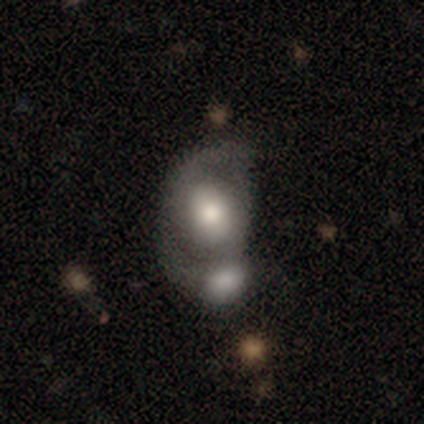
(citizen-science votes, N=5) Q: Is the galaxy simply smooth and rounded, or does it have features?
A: featured or disk — 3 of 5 (60%).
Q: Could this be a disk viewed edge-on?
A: no — 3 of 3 (100%).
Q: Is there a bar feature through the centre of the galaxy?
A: no — 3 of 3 (100%).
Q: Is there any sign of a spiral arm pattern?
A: yes — 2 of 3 (67%).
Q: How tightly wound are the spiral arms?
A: medium — 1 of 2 (50%, tied with loose).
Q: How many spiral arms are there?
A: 2 — 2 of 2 (100%).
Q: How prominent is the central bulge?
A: moderate — 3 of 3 (100%).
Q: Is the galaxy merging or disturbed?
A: merger — 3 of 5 (60%).